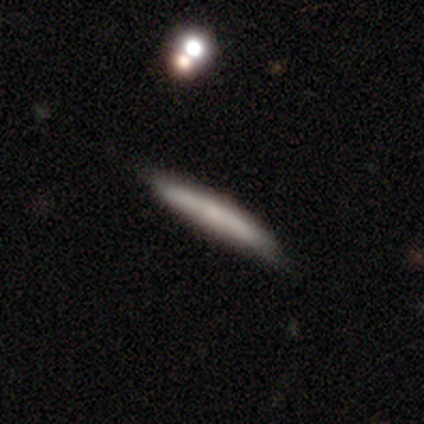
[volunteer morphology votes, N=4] Smooth or featured? smooth (75%)
How rounded? cigar-shaped (100%)
Merging? none (75%)